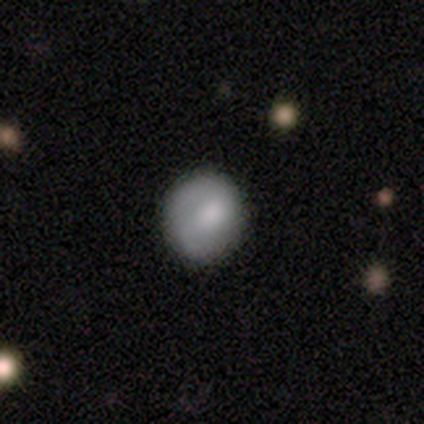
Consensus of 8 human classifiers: A smooth galaxy with no disk features (75%) that is round (83%). Merging: none (75%).